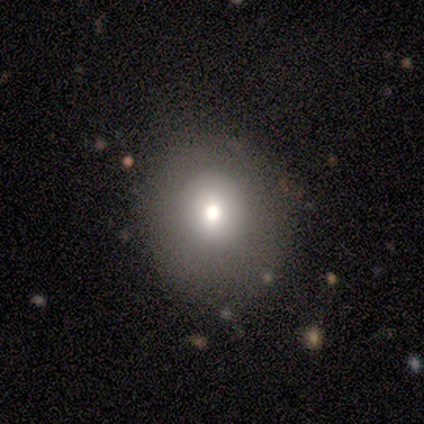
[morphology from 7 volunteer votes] smooth_or_featured: smooth (p=0.71) [alt: featured or disk p=0.14]
how_rounded: round (p=1.00)
merging: none (p=0.83) [alt: major disturbance p=0.17]